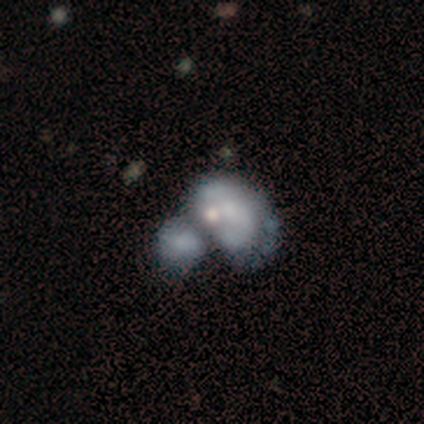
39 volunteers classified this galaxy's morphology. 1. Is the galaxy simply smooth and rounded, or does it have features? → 59% featured or disk, 36% smooth, 5% star or artifact.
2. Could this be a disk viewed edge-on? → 91% no, 9% yes.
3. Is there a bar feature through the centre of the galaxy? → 100% no, 0% strong, 0% weak.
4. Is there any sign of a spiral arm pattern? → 90% no, 10% yes.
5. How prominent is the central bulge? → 43% small, 29% none, 19% moderate, 5% dominant, 5% large.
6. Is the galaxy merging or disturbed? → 62% merger, 19% major disturbance, 11% none, 8% minor disturbance.